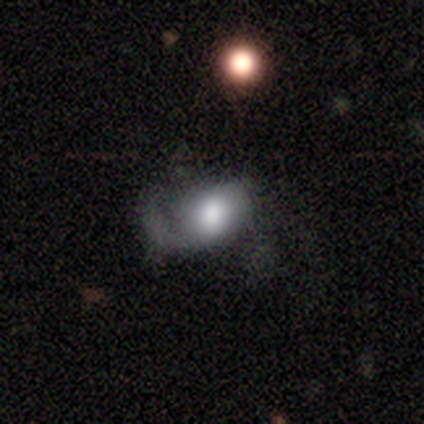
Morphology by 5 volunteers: Smooth or featured? smooth (60%)
How rounded? in between (67%)
Merging? minor disturbance (80%)